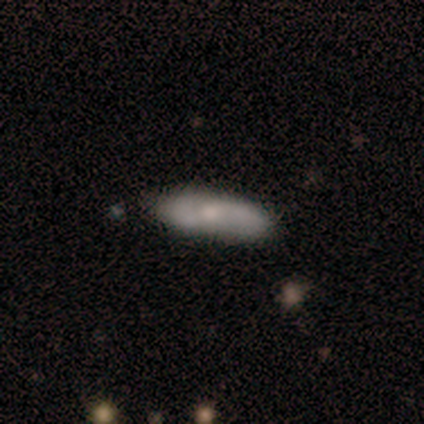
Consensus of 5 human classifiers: smooth_or_featured: smooth (p=0.80) [alt: star or artifact p=0.20]
how_rounded: in between (p=0.50) [tied with: cigar-shaped p=0.50]
merging: none (p=1.00)